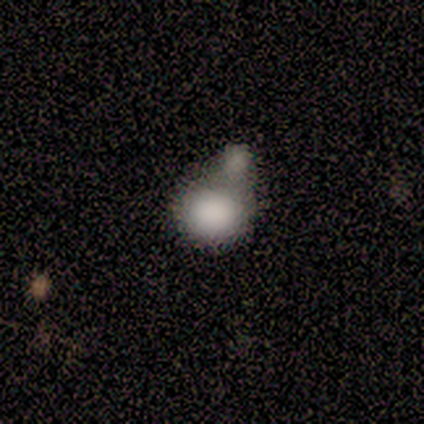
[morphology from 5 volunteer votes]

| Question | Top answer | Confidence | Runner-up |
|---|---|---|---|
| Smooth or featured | smooth | 100% | — |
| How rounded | in between | 60% | round (40%) |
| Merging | minor disturbance | 40% | tied: merger (40%) |